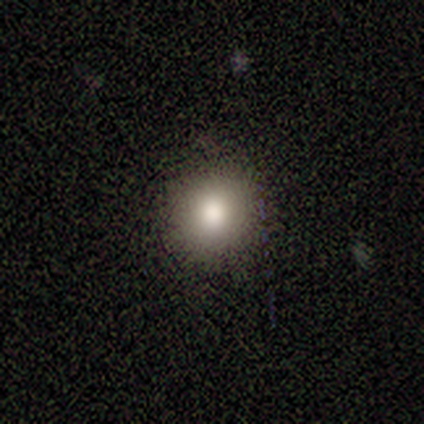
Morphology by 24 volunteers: Overall: smooth (67%). How rounded: round (81%). Merging: none (94%).